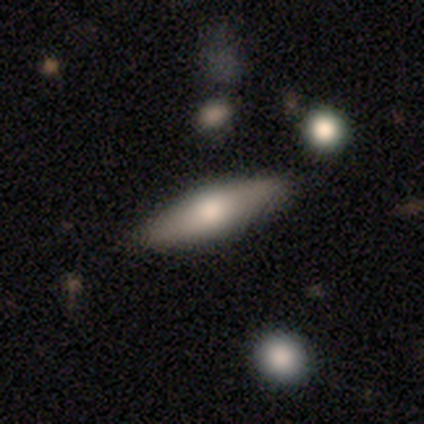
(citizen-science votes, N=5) smooth_or_featured: smooth (p=0.60) [alt: featured or disk p=0.40]
how_rounded: in between (p=0.67) [alt: cigar-shaped p=0.33]
merging: none (p=0.60) [alt: minor disturbance p=0.40]